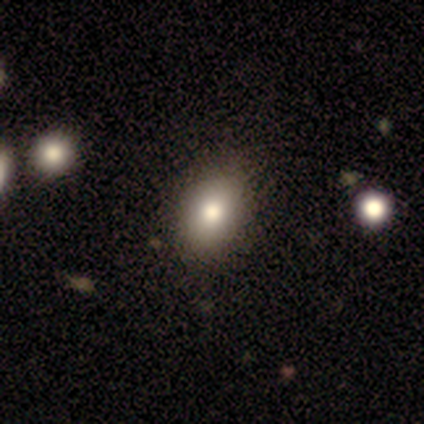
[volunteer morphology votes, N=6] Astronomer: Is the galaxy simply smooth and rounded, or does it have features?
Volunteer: smooth — 50% (runner-up: star or artifact, 33%).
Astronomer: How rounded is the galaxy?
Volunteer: in between — 67%.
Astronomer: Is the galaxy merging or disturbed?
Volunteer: none — 75%.